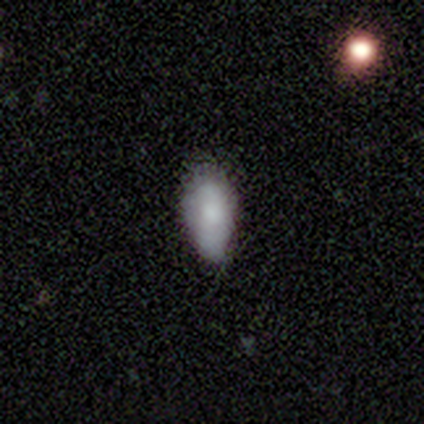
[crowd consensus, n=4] smooth 100%, featured or disk 0%, star or artifact 0%. Down the decision tree: how rounded — in between (100%); merging — minor disturbance (75%).